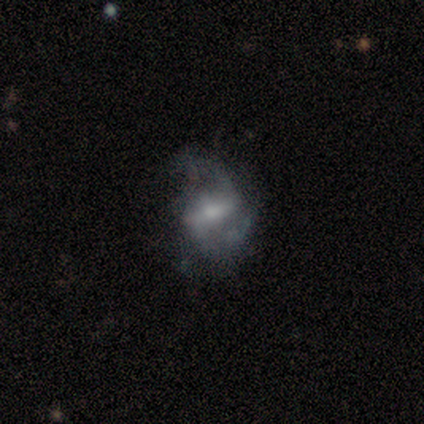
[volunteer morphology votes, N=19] Smooth or featured: featured or disk — 63% (star or artifact — 21%)
Edge-on disk: no — 92% (yes — 8%)
Bar: weak — 55% (strong — 36%)
Spiral arms: yes — 73% (no — 27%)
Spiral winding: medium — 50% (loose — 38%)
Spiral arm count: 2 — 88% (can't tell — 12%)
Bulge size: moderate — 45% (tied with small — 45%)
Merging: none — 33% (tied with minor disturbance — 33%; major disturbance — 33%)